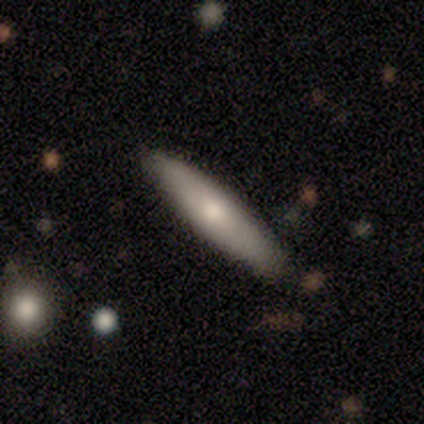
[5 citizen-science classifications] Smooth or featured: smooth — 80% (featured or disk — 20%)
How rounded: cigar-shaped — 75% (in between — 25%)
Merging: none — 80% (minor disturbance — 20%)